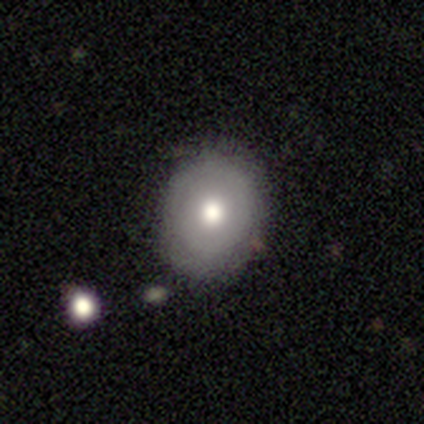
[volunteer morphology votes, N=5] Smooth or featured? 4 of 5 (80%) said smooth. How rounded? 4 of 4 (100%) said round. Merging? 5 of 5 (100%) said none.